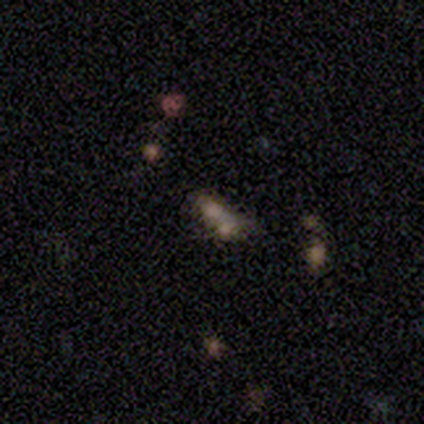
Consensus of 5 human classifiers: This appears to be a smooth galaxy with no disk features (40%, tied with star or artifact) that is in between round and cigar-shaped (100%). Merging: merger (67%).